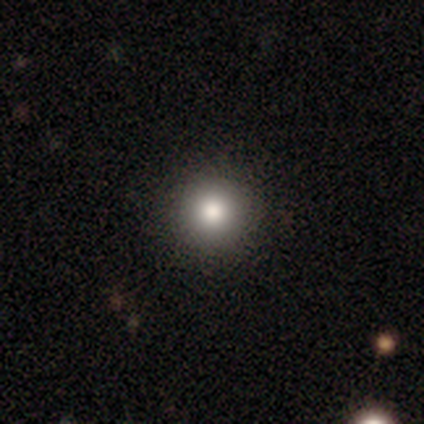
This appears to be a smooth galaxy with no disk features (92%) that is round (95%). Merging: none (69%).